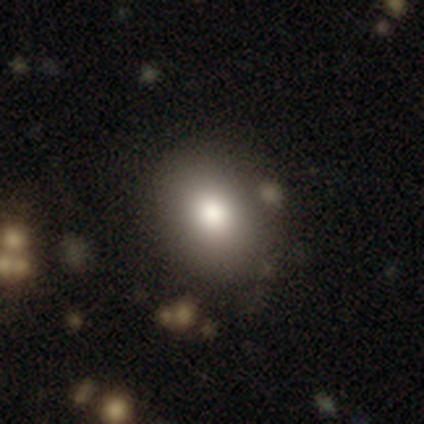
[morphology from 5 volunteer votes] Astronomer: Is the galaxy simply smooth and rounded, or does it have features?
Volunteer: smooth — 80%.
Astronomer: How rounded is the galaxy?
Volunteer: round — 50%, tied with in between at 50%.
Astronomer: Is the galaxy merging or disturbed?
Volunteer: none — 100%.